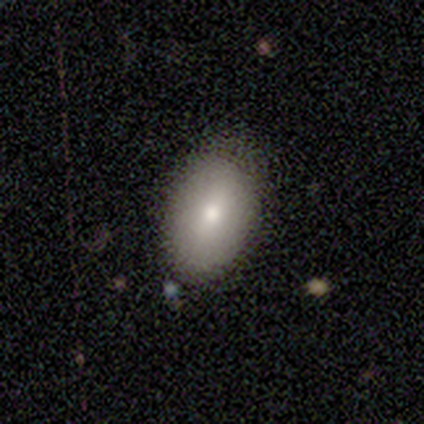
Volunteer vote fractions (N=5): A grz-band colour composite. It shows a smooth galaxy with no disk features (100%) that is in between round and cigar-shaped (80%). Merging: none (100%).